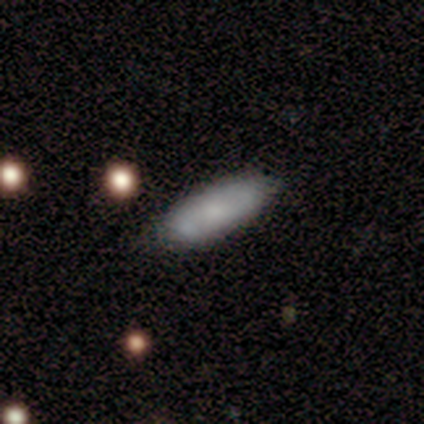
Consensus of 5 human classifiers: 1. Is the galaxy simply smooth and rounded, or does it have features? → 80% smooth, 20% star or artifact, 0% featured or disk.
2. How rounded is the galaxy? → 50% in between (tied), 50% cigar-shaped (tied), 0% round.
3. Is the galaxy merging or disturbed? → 75% none, 25% minor disturbance, 0% major disturbance, 0% merger.